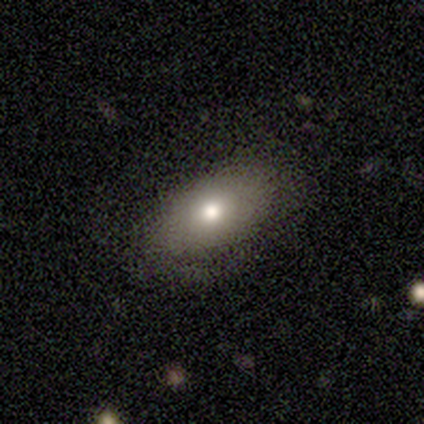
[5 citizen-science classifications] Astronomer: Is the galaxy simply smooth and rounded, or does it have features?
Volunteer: featured or disk — 60% (runner-up: smooth, 40%).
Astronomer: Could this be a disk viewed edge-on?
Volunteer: no — 67%.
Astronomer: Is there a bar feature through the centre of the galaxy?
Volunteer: no — 100%.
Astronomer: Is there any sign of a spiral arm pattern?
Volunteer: no — 100%.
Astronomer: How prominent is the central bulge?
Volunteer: moderate — 100%.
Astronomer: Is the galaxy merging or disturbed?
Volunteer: none — 100%.